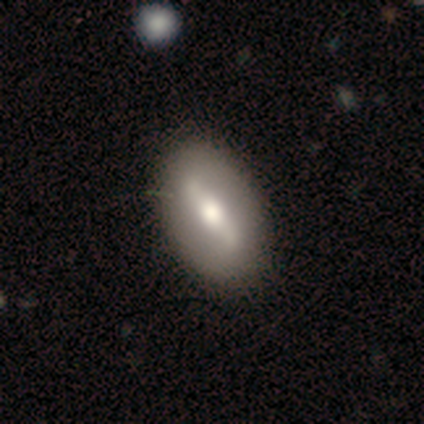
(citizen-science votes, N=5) Smooth or featured: featured or disk — 60% (smooth — 40%)
Edge-on disk: no — 67% (yes — 33%)
Bar: strong — 50% (tied with no — 50%)
Spiral arms: no — 100%
Bulge size: large — 50% (tied with moderate — 50%)
Merging: none — 60% (minor disturbance — 40%)